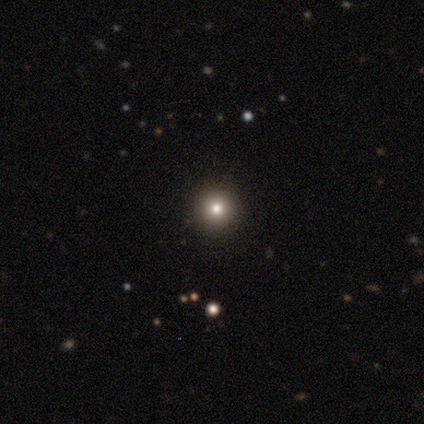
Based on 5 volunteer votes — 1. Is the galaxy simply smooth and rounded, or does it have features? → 60% smooth, 20% featured or disk, 20% star or artifact.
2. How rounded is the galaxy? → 67% round, 33% in between, 0% cigar-shaped.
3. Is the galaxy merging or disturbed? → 75% none, 25% major disturbance, 0% minor disturbance, 0% merger.